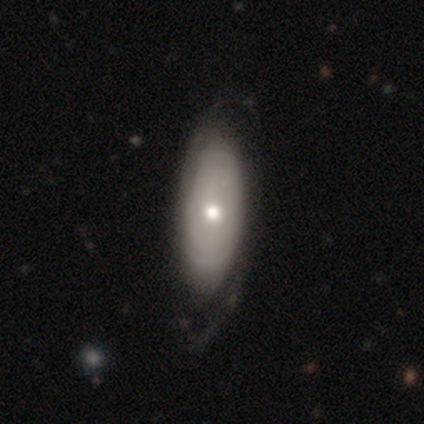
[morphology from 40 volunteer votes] A featured or disk galaxy (60%) with no bar (96%), 2 (53%) tight (47%) spiral arms (74%) and a moderate central bulge (70%).

Vote fractions:
- Smooth or featured? featured or disk: 60% / smooth: 40% / star or artifact: 0%
- Edge-on disk? no: 96% / yes: 4%
- Bar? no: 96% / weak: 4% / strong: 0%
- Spiral arms? yes: 74% / no: 26%
- Spiral winding? tight: 47% / loose: 29% / medium: 24%
- Spiral arm count? 2: 53% / can't tell: 47% / 1: 0% / 3: 0% / 4: 0% / more than 4: 0%
- Bulge size? moderate: 70% / small: 22% / dominant: 4% / none: 4% / large: 0%
- Merging? none: 50% / minor disturbance: 18% / major disturbance: 12% / merger: 0%